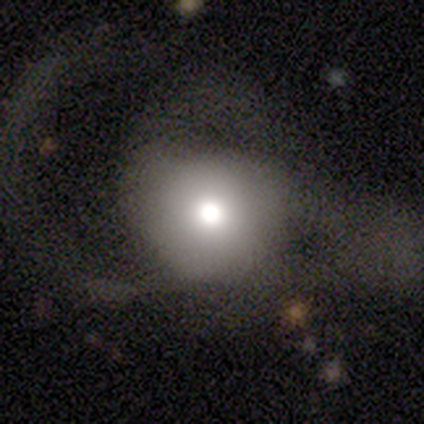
Q: Smooth or featured?
A: smooth (100%)
Q: How rounded?
A: round (100%)
Q: Merging?
A: none (80%); runner-up: major disturbance (20%)